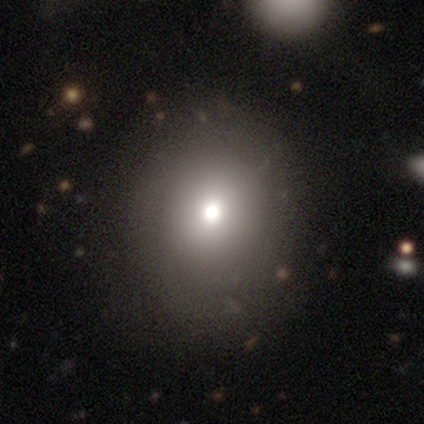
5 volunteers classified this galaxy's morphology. smooth 80%, star or artifact 20%, featured or disk 0%. Down the decision tree: how rounded — in between (75%); merging — none (50%, tied with minor disturbance).